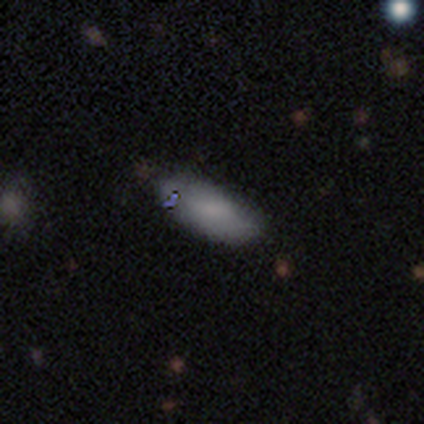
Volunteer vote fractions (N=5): Smooth or featured? smooth (100%)
How rounded? in between (80%)
Merging? none (60%)